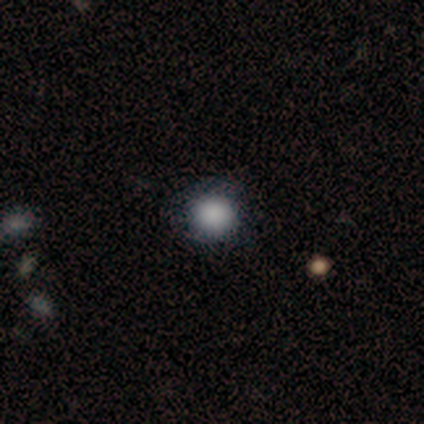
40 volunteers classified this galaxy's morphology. Smooth or featured? 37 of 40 (92%) said smooth. How rounded? 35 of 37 (95%) said round. Merging? 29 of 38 (76%) said none.